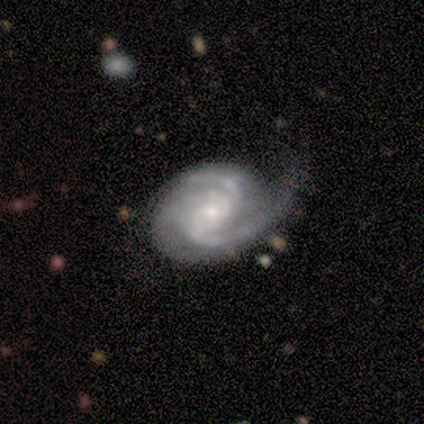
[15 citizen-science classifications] Smooth or featured? featured or disk (93%)
Edge-on disk? no (100%)
Bar? no (57%)
Spiral arms? yes (93%)
Spiral winding? tight (46%)
Spiral arm count? 3 (62%)
Bulge size? small (64%)
Merging? none (57%)